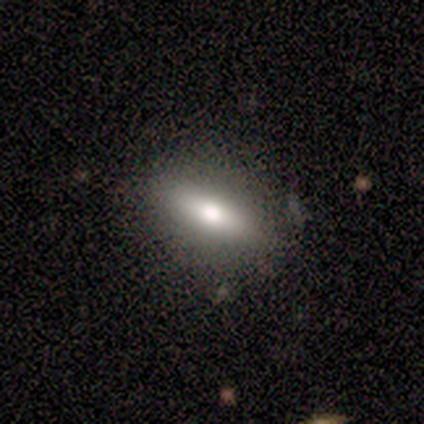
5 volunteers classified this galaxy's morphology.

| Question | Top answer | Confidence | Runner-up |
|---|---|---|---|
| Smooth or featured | smooth | 60% | featured or disk (40%) |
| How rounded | in between | 67% | cigar-shaped (33%) |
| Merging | none | 80% | minor disturbance (20%) |